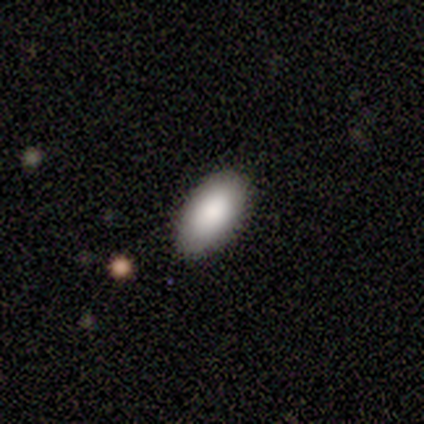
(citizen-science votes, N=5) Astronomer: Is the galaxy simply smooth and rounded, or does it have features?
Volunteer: smooth — 80%.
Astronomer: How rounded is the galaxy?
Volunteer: in between — 100%.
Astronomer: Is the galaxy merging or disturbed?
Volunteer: none — 100%.